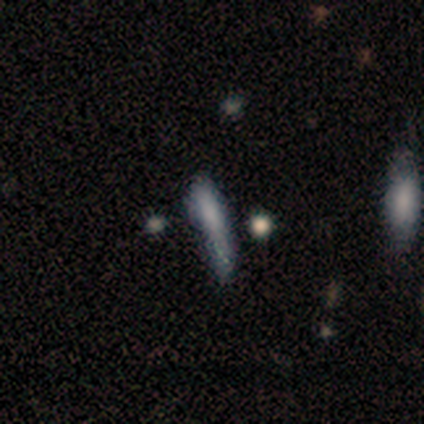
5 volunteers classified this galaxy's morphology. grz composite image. It shows a smooth galaxy with no disk features (60%) that is in between round and cigar-shaped (67%). Merging: none (33%, tied with major disturbance and merger).